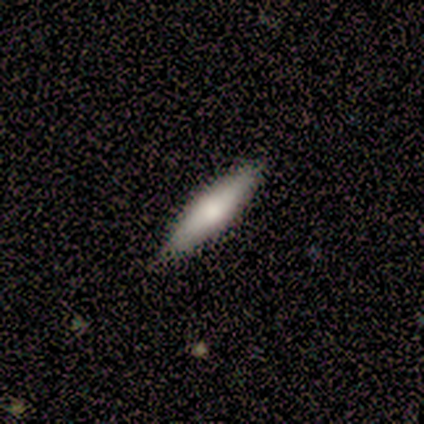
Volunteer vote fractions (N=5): featured or disk 60%, smooth 40%, star or artifact 0%. Down the decision tree: edge-on disk — yes (100%); edge-on bulge — rounded (67%); merging — none (100%).